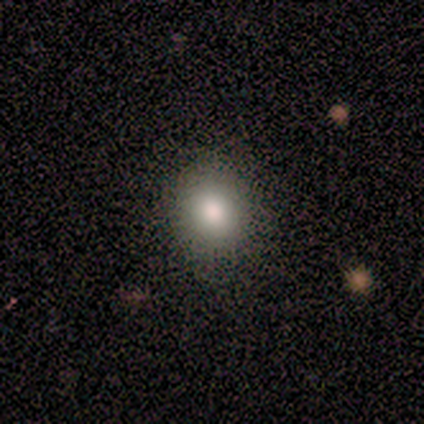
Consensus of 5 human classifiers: Smooth or featured? 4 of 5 (80%) said smooth. How rounded? 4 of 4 (100%) said round. Merging? 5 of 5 (100%) said none.